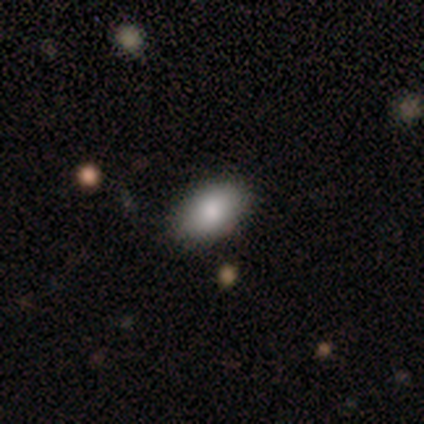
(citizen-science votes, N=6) Morphology: type=smooth (100%); roundness=in between (67%); merging=none (100%).